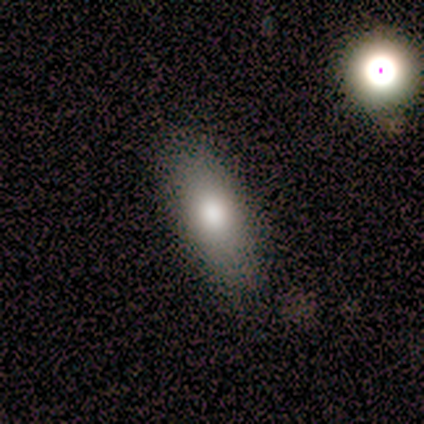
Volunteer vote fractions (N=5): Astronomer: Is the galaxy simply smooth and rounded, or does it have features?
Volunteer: smooth — 80%.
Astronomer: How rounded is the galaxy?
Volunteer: in between — 50%, tied with cigar-shaped at 50%.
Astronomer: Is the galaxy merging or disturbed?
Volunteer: none — 100%.